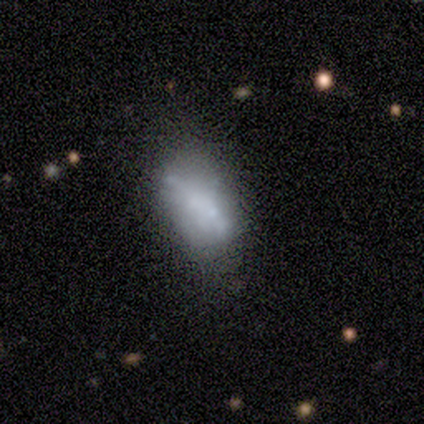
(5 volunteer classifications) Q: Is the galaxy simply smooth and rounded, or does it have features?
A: smooth — 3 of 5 (60%).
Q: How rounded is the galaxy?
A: in between — 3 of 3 (100%).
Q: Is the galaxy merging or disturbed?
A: none — 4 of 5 (80%).